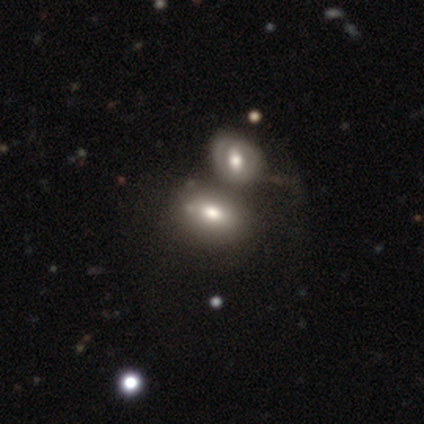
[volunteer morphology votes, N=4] Smooth or featured: smooth — 50% (tied with featured or disk — 50%)
How rounded: in between — 100%
Merging: merger — 75% (minor disturbance — 25%)